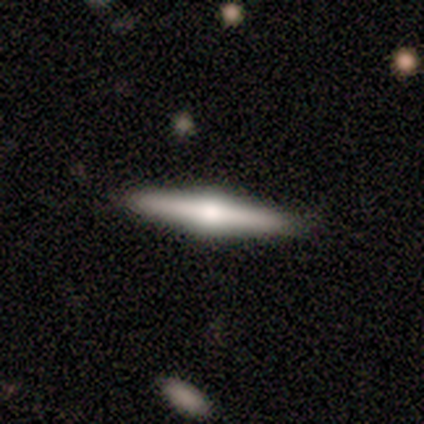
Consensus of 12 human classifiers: A featured or disk galaxy (67%) viewed edge-on (100%) with a rounded central bulge (88%). Merging: none (100%).